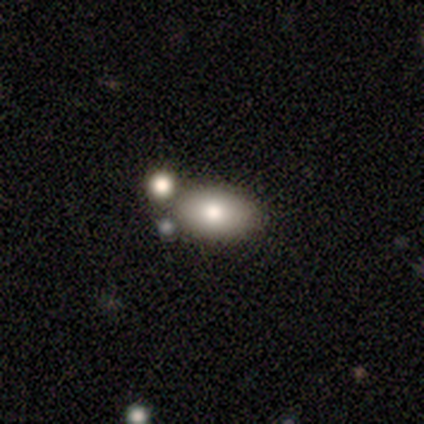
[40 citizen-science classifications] A smooth galaxy with no disk features (88%) that is in between round and cigar-shaped (89%).

Vote fractions:
- Smooth or featured? smooth: 88% / featured or disk: 12% / star or artifact: 0%
- How rounded? in between: 89% / round: 9% / cigar-shaped: 3%
- Merging? none: 48% / merger: 22% / minor disturbance: 5% / major disturbance: 5%